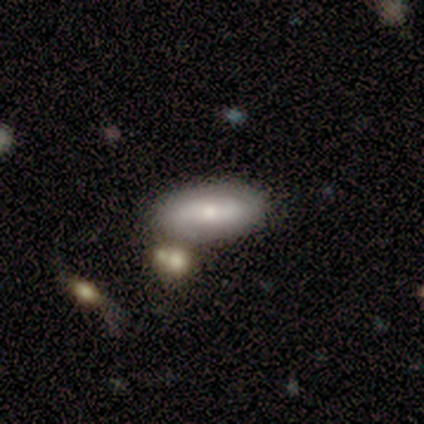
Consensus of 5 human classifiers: Morphology: type=smooth (60%); roundness=in between (100%); merging=none (80%).